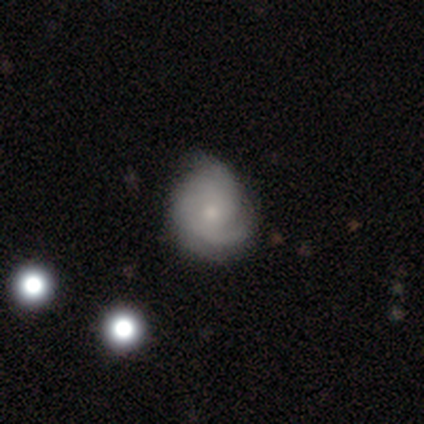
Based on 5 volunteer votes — A featured or disk galaxy (80%) with a weak bar (50%, tied with no), 2 (75%) medium (75%) spiral arms (100%) and a moderate central bulge (75%).

Vote fractions:
- Smooth or featured? featured or disk: 80% / smooth: 20% / star or artifact: 0%
- Edge-on disk? no: 100% / yes: 0%
- Bar? weak: 50% (tied) / no: 50% (tied) / strong: 0%
- Spiral arms? yes: 100% / no: 0%
- Spiral winding? medium: 75% / loose: 25% / tight: 0%
- Spiral arm count? 2: 75% / 1: 25% / 3: 0% / 4: 0% / more than 4: 0% / can't tell: 0%
- Bulge size? moderate: 75% / small: 25% / dominant: 0% / large: 0% / none: 0%
- Merging? none: 40% (tied) / minor disturbance: 40% (tied) / major disturbance: 20% / merger: 0%